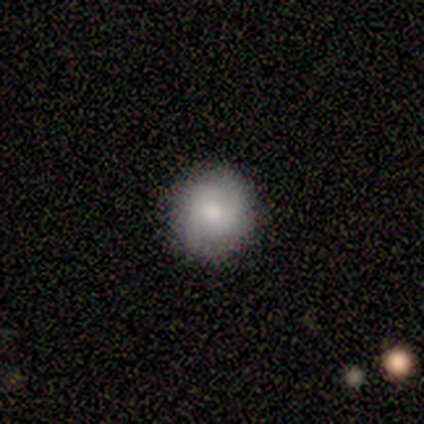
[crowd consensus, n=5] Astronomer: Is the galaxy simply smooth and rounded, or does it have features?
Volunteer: smooth — 80%.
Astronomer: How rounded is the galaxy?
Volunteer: round — 100%.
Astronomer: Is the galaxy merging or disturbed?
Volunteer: none — 100%.